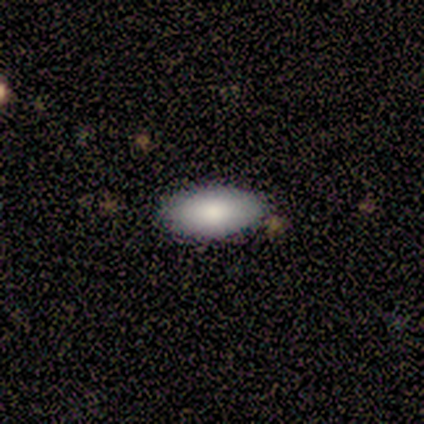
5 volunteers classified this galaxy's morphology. Smooth or featured? 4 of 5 (80%) said smooth. How rounded? 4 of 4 (100%) said in between. Merging? 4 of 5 (80%) said none.